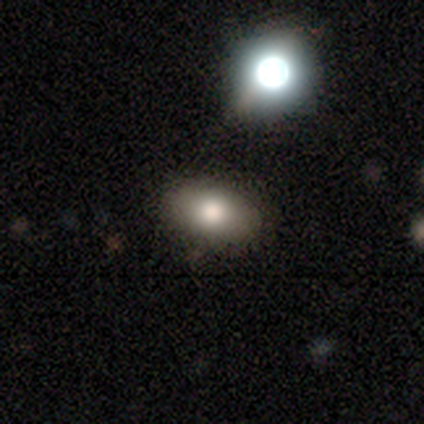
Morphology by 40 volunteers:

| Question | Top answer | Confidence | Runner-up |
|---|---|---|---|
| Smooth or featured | smooth | 75% | featured or disk (12%) |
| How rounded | in between | 83% | round (17%) |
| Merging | none | 91% | minor disturbance (9%) |